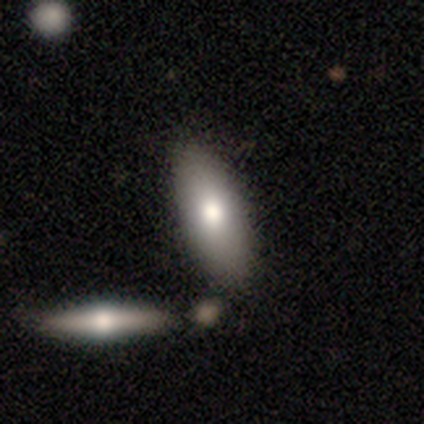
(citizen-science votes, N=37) A smooth galaxy with no disk features (65%) that is in between round and cigar-shaped (92%).

Vote fractions:
- Smooth or featured? smooth: 65% / star or artifact: 19% / featured or disk: 16%
- How rounded? in between: 92% / round: 4% / cigar-shaped: 4%
- Merging? none: 70% / merger: 17% / minor disturbance: 10% / major disturbance: 3%